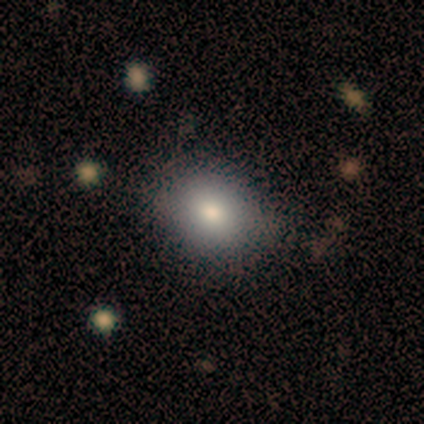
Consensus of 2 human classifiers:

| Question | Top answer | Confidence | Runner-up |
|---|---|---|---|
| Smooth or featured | smooth | 50% | tied: featured or disk (50%) |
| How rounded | in between | 100% | — |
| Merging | none | 100% | — |